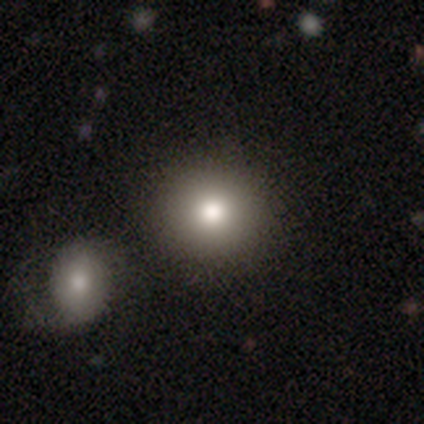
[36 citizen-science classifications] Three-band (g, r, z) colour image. It shows a smooth galaxy with no disk features (86%) that is round (94%). Merging: none (88%).